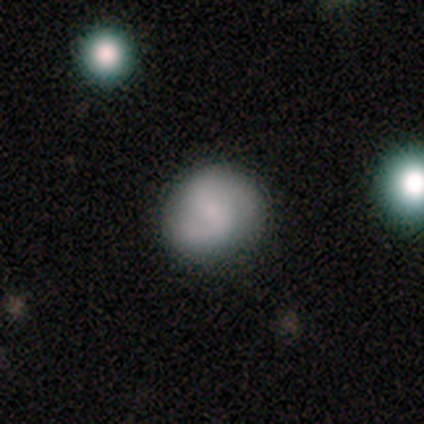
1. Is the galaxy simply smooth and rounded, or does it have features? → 50% smooth, 25% featured or disk, 25% star or artifact.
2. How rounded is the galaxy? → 100% round, 0% in between, 0% cigar-shaped.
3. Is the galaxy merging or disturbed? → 67% none, 33% minor disturbance, 0% major disturbance, 0% merger.